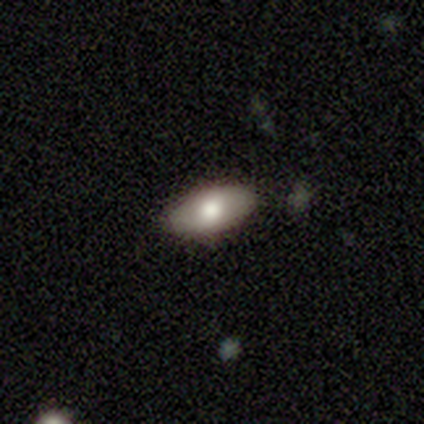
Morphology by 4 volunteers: smooth-or-featured: smooth: 50% (tied) | featured or disk: 50% (tied) | star or artifact: 0%
  how-rounded: in between: 100% | round: 0% | cigar-shaped: 0%
  merging: none: 50% | minor disturbance: 25% | merger: 25% | major disturbance: 0%